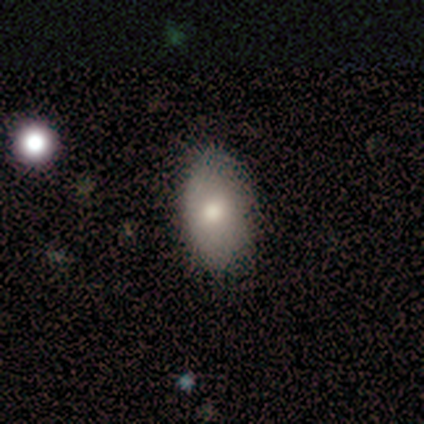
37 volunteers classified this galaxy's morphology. This is clearly a smooth galaxy (86%). How rounded: clearly in between (97%). Merging: likely none (78%).